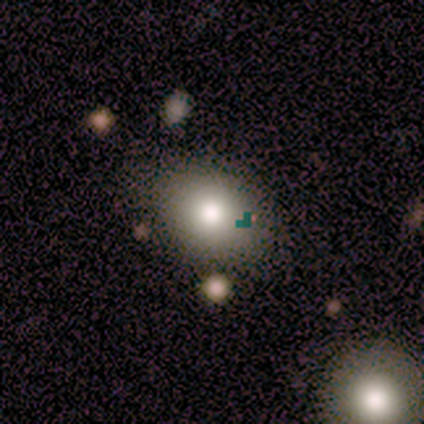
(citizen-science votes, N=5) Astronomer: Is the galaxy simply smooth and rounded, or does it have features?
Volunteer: smooth — 60%.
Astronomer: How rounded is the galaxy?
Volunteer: in between — 67%.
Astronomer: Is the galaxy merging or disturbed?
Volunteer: none — 50%, tied with minor disturbance at 50%.